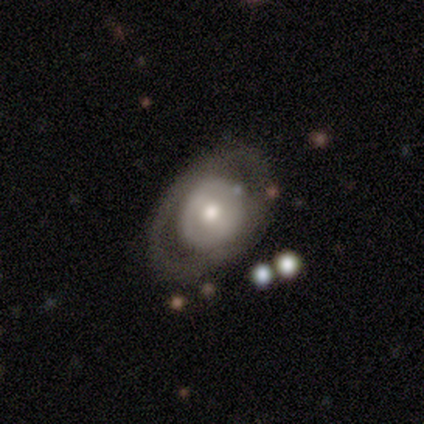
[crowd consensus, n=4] Volunteers were most divided on "smooth or featured" (2-way tie): smooth: 50%, featured or disk: 50%, star or artifact: 0%; "how rounded" (2-way tie): round: 50%, in between: 50%, cigar-shaped: 0%. More confident: merging — none (75%).